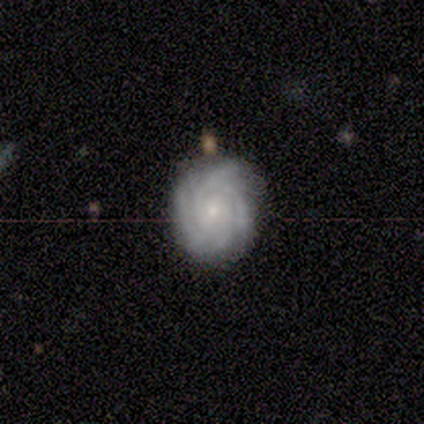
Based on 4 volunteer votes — Morphology: type=featured or disk (100%); edge-on=no (100%); bar=no (75%); spiral arms=yes (100%); winding=tight (100%); arm count=can't tell (50%); bulge=moderate (50%, tied with small); merging=none (100%).